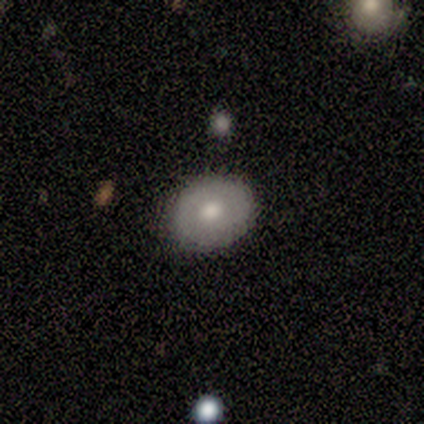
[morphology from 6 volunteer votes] Smooth or featured? 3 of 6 (50%, tied with featured or disk) said smooth. How rounded? 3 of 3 (100%) said round. Merging? 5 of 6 (83%) said none.